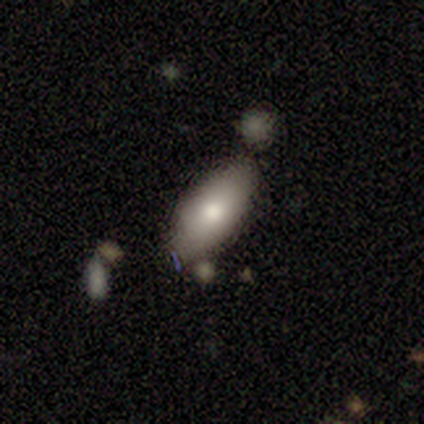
smooth_or_featured: smooth (p=0.64) [alt: featured or disk p=0.26]
how_rounded: in between (p=0.92) [alt: cigar-shaped p=0.08]
merging: none (p=0.63) [alt: minor disturbance p=0.26]